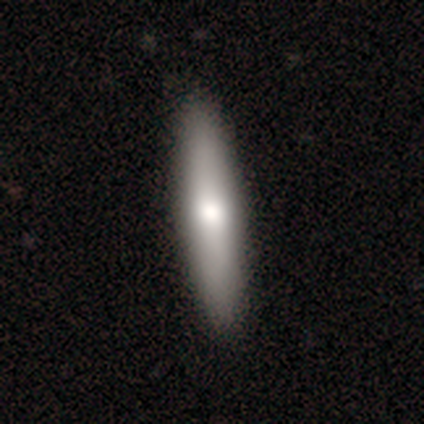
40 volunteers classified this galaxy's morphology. smooth_or_featured: smooth (p=0.55) [alt: featured or disk p=0.42]
how_rounded: cigar-shaped (p=0.73) [alt: in between p=0.23]
merging: none (p=0.51) [alt: minor disturbance p=0.08]